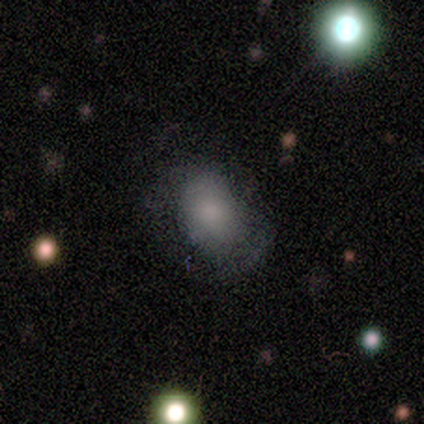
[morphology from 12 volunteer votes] Overall: smooth (67%; featured or disk 33%). How rounded: round (50%, tied with in between). Merging: none (50%; minor disturbance 33%).